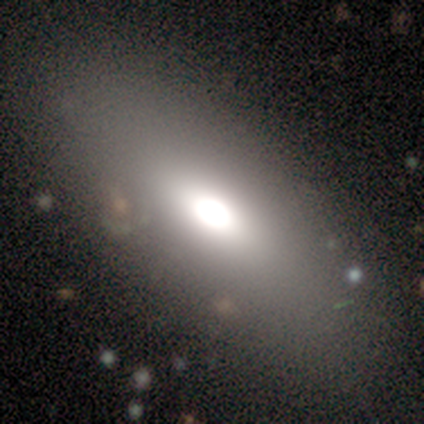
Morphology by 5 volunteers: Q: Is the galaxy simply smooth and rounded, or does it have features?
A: smooth — 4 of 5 (80%).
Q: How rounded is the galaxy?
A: in between — 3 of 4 (75%).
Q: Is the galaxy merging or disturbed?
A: none — 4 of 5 (80%).